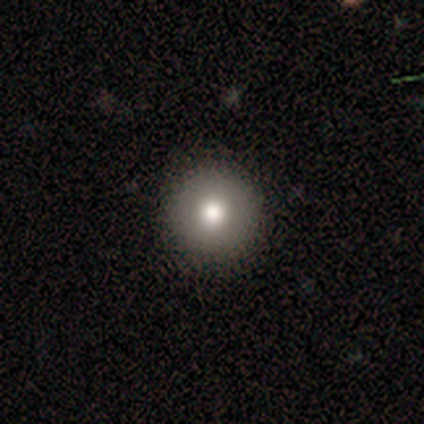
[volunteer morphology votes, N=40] Smooth or featured? 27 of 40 (68%) said smooth. How rounded? 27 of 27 (100%) said round. Merging? 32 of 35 (91%) said none.